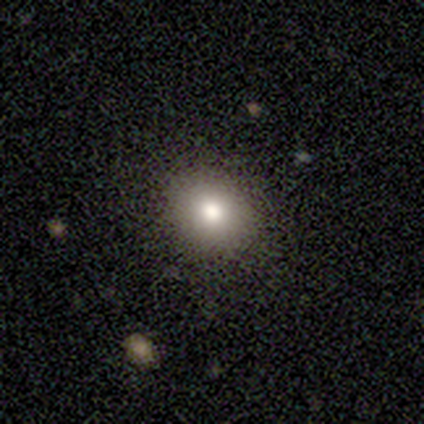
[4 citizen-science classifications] Morphology: type=smooth (75%); roundness=round (100%); merging=none (67%).